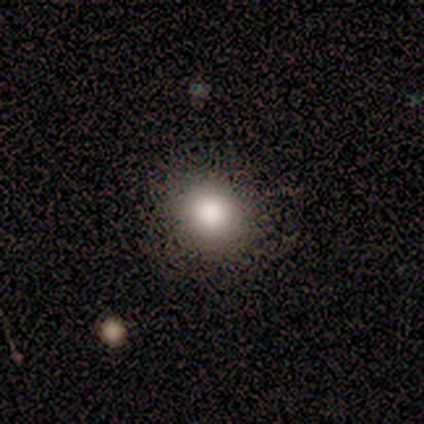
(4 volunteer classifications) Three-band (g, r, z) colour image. It shows a smooth galaxy with no disk features (75%) that is round (100%). Merging: none (75%).